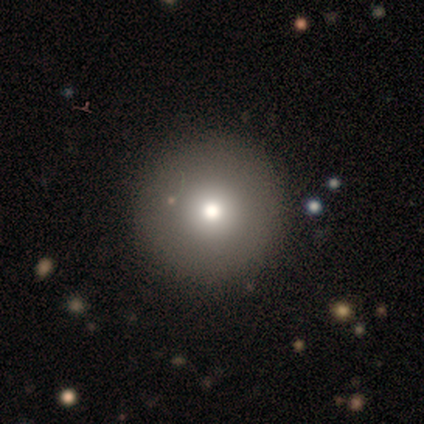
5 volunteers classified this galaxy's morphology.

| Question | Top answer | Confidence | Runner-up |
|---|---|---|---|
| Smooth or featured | smooth | 100% | — |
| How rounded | round | 100% | — |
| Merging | none | 80% | minor disturbance (20%) |